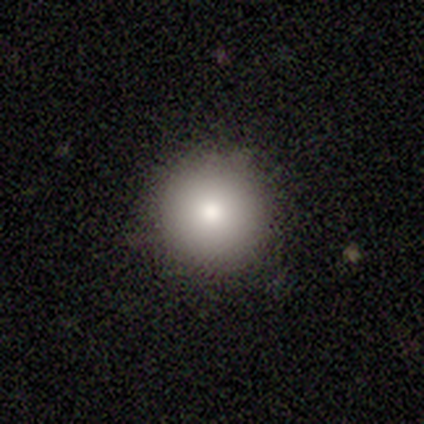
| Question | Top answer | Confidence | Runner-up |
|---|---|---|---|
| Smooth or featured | smooth | 100% | — |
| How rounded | round | 100% | — |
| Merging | none | 67% | minor disturbance (33%) |